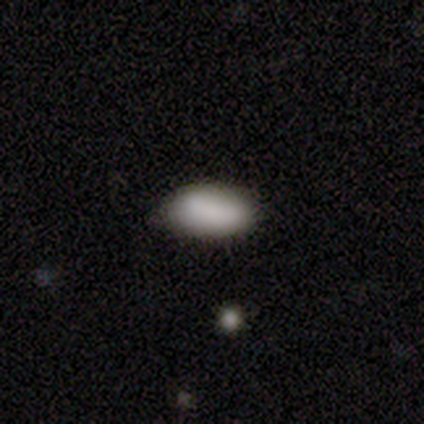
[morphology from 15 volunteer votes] smooth-or-featured: smooth: 100% | featured or disk: 0% | star or artifact: 0%
  how-rounded: in between: 100% | round: 0% | cigar-shaped: 0%
  merging: none: 73% | minor disturbance: 27% | major disturbance: 0% | merger: 0%